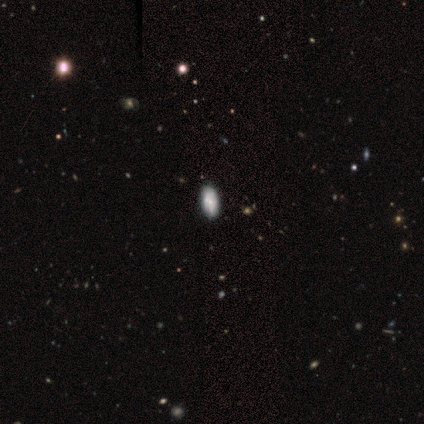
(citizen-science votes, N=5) smooth 80%, star or artifact 20%, featured or disk 0%. Down the decision tree: how rounded — in between (100%); merging — none (100%).